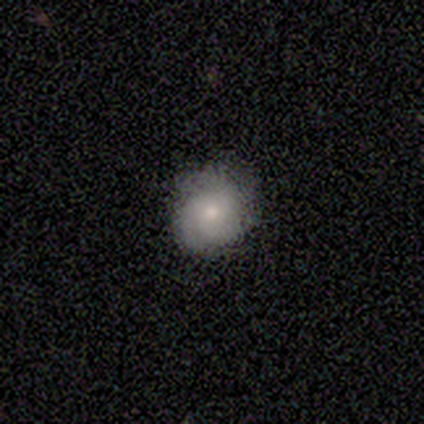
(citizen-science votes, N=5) smooth_or_featured: smooth (p=0.40) [tied with: featured or disk p=0.40]
how_rounded: round (p=1.00)
merging: none (p=0.50) [alt: minor disturbance p=0.25]